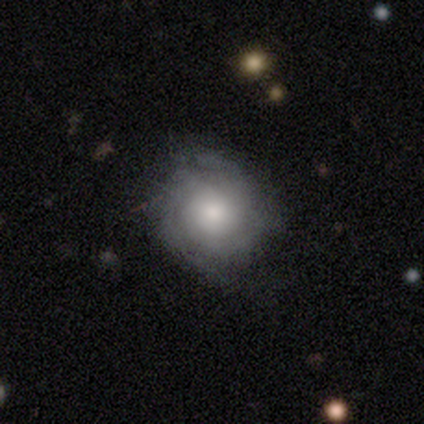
Smooth or featured: featured or disk — 70% (smooth — 22%)
Edge-on disk: no — 100%
Bar: no — 89% (strong — 7%)
Spiral arms: yes — 93% (no — 7%)
Spiral winding: tight — 62% (medium — 31%)
Spiral arm count: can't tell — 54% (2 — 31%)
Bulge size: moderate — 39% (small — 36%)
Merging: none — 51% (minor disturbance — 16%)